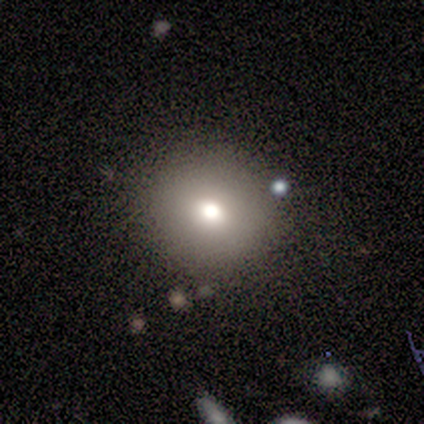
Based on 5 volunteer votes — Overall: smooth (80%). How rounded: round (100%). Merging: none (100%).